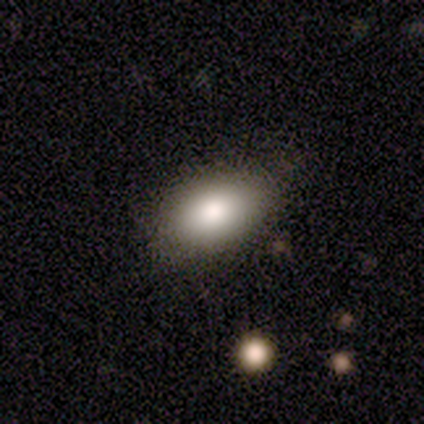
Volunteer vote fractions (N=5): Smooth or featured? 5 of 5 (100%) said smooth. How rounded? 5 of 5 (100%) said in between. Merging? 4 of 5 (80%) said none.